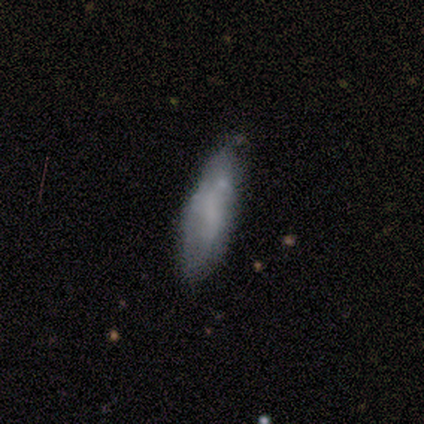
Smooth or featured? 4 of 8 (50%, tied with featured or disk) said smooth. How rounded? 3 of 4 (75%) said in between. Merging? 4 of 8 (50%) said none.